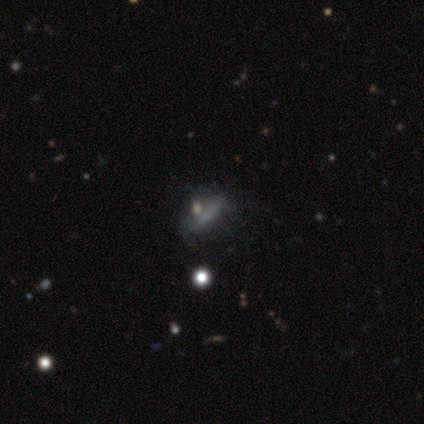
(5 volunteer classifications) A smooth galaxy with no disk features (60%) that is cigar-shaped (67%).

Vote fractions:
- Smooth or featured? smooth: 60% / featured or disk: 40% / star or artifact: 0%
- How rounded? cigar-shaped: 67% / in between: 33% / round: 0%
- Merging? none: 80% / minor disturbance: 20% / major disturbance: 0% / merger: 0%